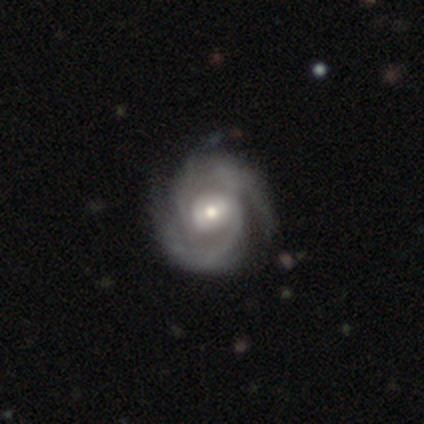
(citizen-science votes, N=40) Smooth or featured? 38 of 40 (95%) said featured or disk. Edge-on disk? 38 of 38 (100%) said no. Bar? 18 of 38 (47%) said no. Spiral arms? 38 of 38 (100%) said yes. Spiral winding? 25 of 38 (66%) said tight. Spiral arm count? 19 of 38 (50%) said 2. Bulge size? 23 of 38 (61%) said moderate. Merging? 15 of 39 (38%) said none.